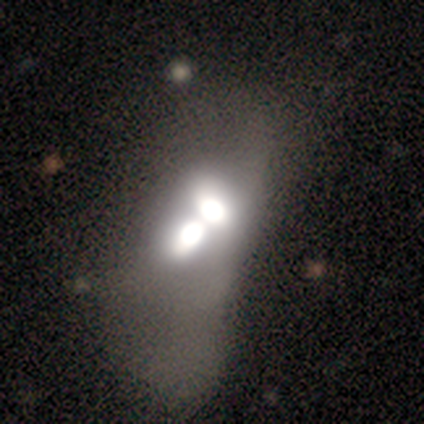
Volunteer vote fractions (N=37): Smooth or featured? smooth (59%)
How rounded? in between (77%)
Merging? merger (86%)